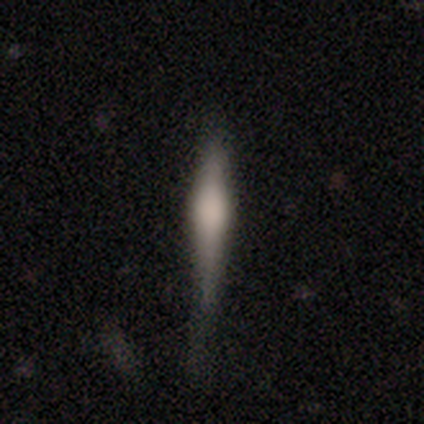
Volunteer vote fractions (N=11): smooth_or_featured: featured or disk (p=0.55) [alt: smooth p=0.27]
disk_edge_on: yes (p=1.00)
edge_on_bulge: rounded (p=1.00)
merging: none (p=0.56) [alt: minor disturbance p=0.44]